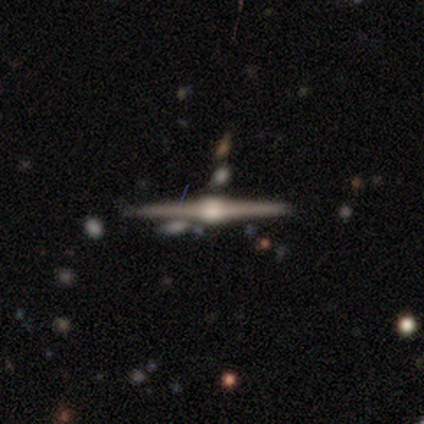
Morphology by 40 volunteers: featured or disk 92%, smooth 5%, star or artifact 2%. Down the decision tree: edge-on disk — yes (97%); edge-on bulge — rounded (92%); merging — none (90%).